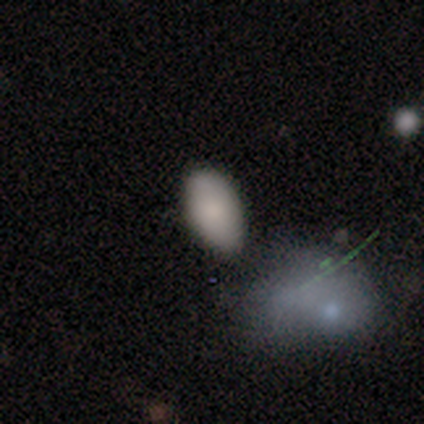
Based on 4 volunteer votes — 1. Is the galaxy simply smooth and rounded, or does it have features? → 75% smooth, 25% star or artifact, 0% featured or disk.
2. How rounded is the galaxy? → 100% in between, 0% round, 0% cigar-shaped.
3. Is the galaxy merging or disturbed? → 100% none, 0% minor disturbance, 0% major disturbance, 0% merger.